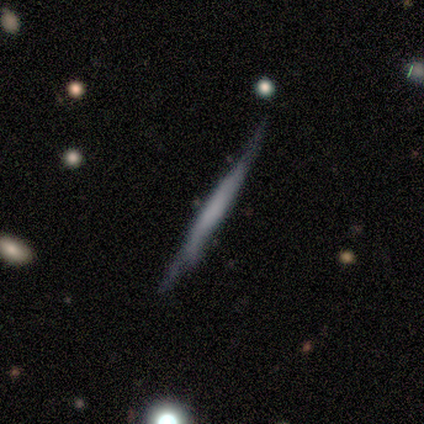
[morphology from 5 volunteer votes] smooth_or_featured: smooth (p=0.60) [alt: featured or disk p=0.40]
how_rounded: cigar-shaped (p=1.00)
merging: none (p=0.40) [tied with: minor disturbance p=0.40]